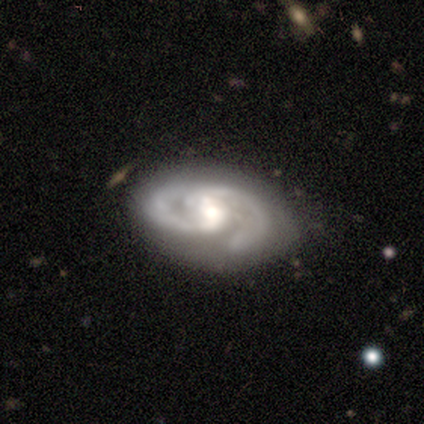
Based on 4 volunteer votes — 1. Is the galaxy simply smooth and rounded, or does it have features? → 75% featured or disk, 25% star or artifact, 0% smooth.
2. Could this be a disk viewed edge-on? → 100% no, 0% yes.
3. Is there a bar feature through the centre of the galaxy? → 67% no, 33% weak, 0% strong.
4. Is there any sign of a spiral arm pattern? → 100% yes, 0% no.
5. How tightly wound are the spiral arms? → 67% tight, 33% medium, 0% loose.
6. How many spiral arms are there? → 67% 2, 33% can't tell, 0% 1, 0% 3, 0% 4, 0% more than 4.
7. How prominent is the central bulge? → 67% moderate, 33% small, 0% dominant, 0% large, 0% none.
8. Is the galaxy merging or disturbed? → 67% none, 33% minor disturbance, 0% major disturbance, 0% merger.